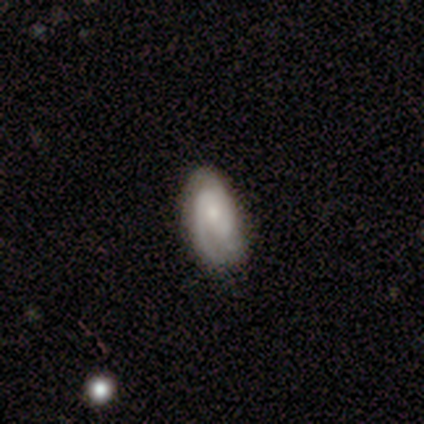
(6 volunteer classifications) A featured or disk galaxy (100%) with no bar (83%), 2 (40%, tied with 3) tight (40%, tied with medium) spiral arms (83%) and a small central bulge (67%). Merging: none (100%).